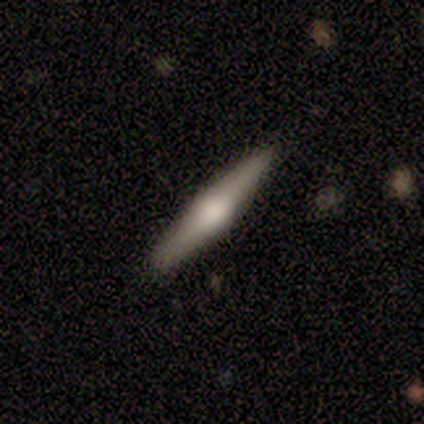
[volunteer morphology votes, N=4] Overall: featured or disk (75%). Edge-on disk: yes (67%; no 33%). Edge-on bulge: rounded (100%). Merging: none (100%).